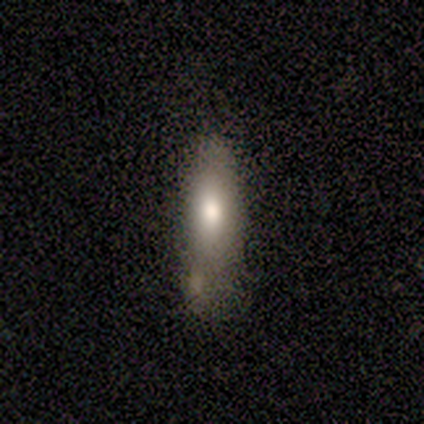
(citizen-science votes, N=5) smooth_or_featured: smooth (p=0.60) [alt: featured or disk p=0.40]
how_rounded: in between (p=1.00)
merging: minor disturbance (p=0.60) [alt: none p=0.20]